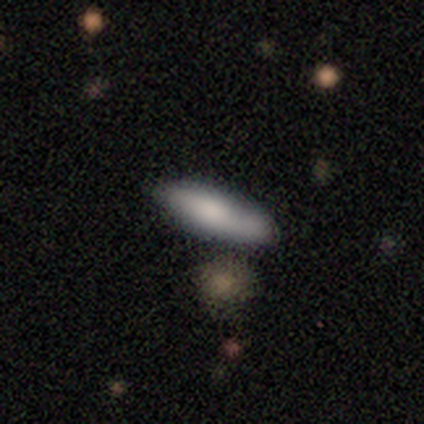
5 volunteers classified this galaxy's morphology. A smooth galaxy with no disk features (80%) that is in between round and cigar-shaped (50%, tied with cigar-shaped).

Vote fractions:
- Smooth or featured? smooth: 80% / featured or disk: 20% / star or artifact: 0%
- How rounded? in between: 50% (tied) / cigar-shaped: 50% (tied) / round: 0%
- Merging? none: 100% / minor disturbance: 0% / major disturbance: 0% / merger: 0%